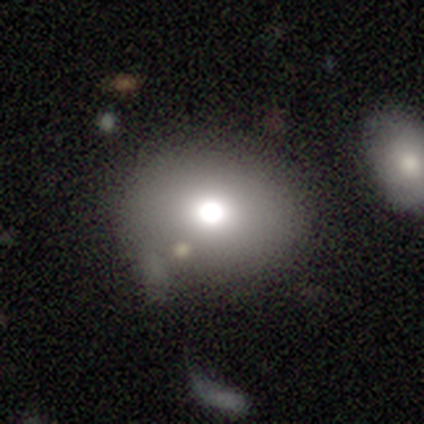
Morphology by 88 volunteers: A smooth galaxy with no disk features (58%) that is round (63%). Merging: none (68%).